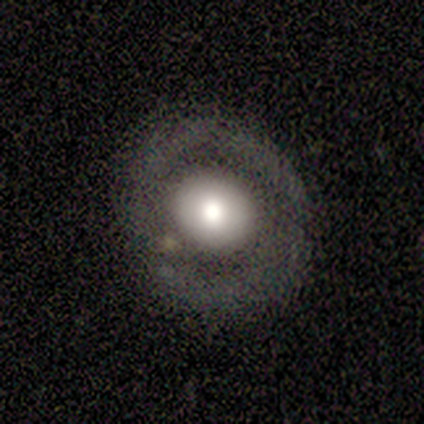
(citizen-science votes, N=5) Smooth or featured? smooth (60%)
How rounded? in between (67%)
Merging? none (80%)